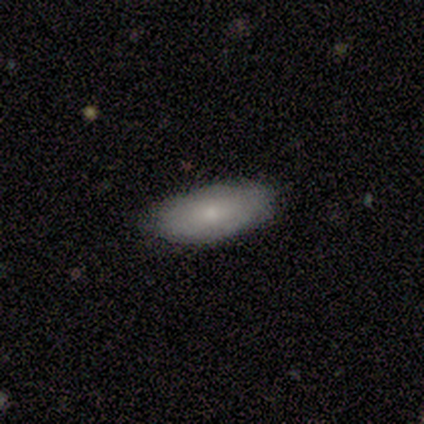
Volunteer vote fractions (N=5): smooth 60%, featured or disk 40%, star or artifact 0%. Down the decision tree: how rounded — in between (100%); merging — none (80%).